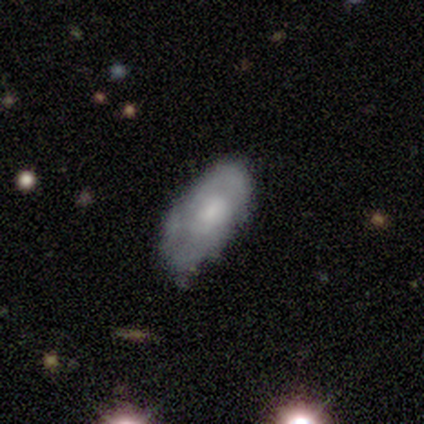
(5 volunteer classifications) Morphology: type=smooth (80%); roundness=in between (100%); merging=none (40%, tied with minor disturbance).